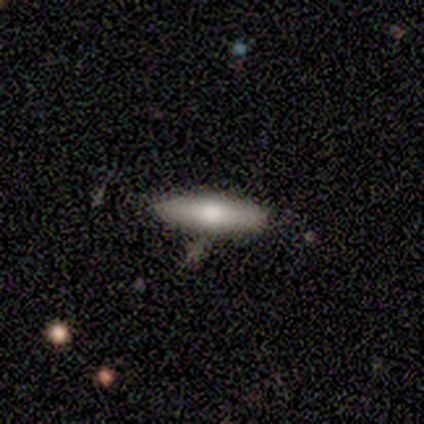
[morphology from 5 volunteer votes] smooth 60%, featured or disk 20%, star or artifact 20%. Down the decision tree: how rounded — cigar-shaped (100%); merging — none (50%, tied with minor disturbance).